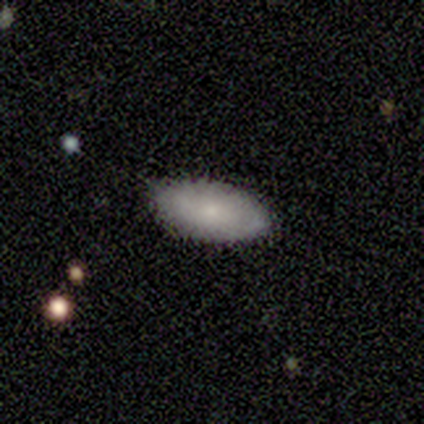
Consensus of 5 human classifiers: Q: Smooth or featured?
A: featured or disk (60%); runner-up: smooth (40%)
Q: Edge-on disk?
A: no (100%)
Q: Bar?
A: no (100%)
Q: Spiral arms?
A: yes (67%); runner-up: no (33%)
Q: Spiral winding?
A: medium (100%)
Q: Spiral arm count?
A: can't tell (100%)
Q: Bulge size?
A: large (33%); tied with: moderate (33%); small (33%)
Q: Merging?
A: none (100%)